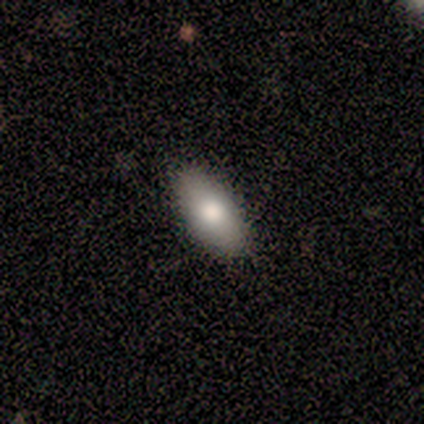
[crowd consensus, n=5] smooth-or-featured: smooth: 60% | featured or disk: 20% | star or artifact: 20%
  how-rounded: in between: 67% | round: 33% | cigar-shaped: 0%
  merging: none: 100% | minor disturbance: 0% | major disturbance: 0% | merger: 0%